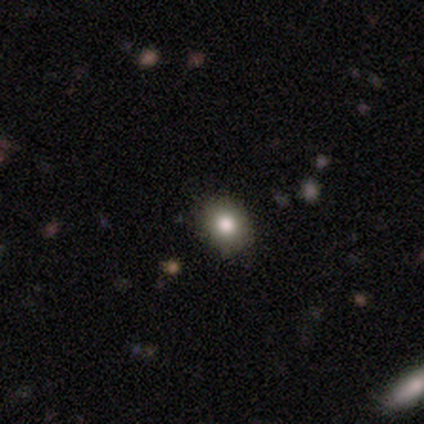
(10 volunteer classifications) This appears to be a smooth galaxy with no disk features (90%) that is round (89%). Merging: none (100%).